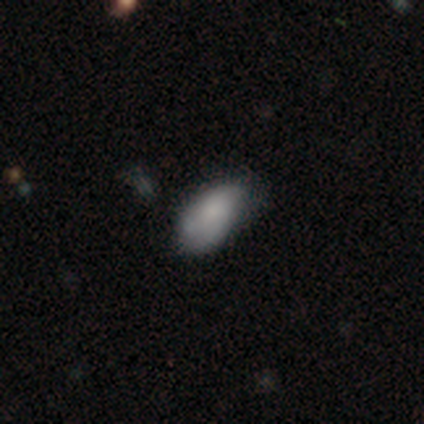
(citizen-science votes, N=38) smooth 76%, featured or disk 13%, star or artifact 11%. Down the decision tree: how rounded — in between (97%); merging — none (50%).